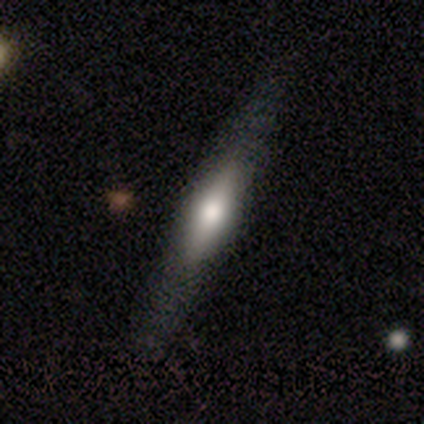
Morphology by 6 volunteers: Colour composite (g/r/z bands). It shows a smooth galaxy with no disk features (50%, tied with featured or disk) that is cigar-shaped (100%). Merging: none (67%).